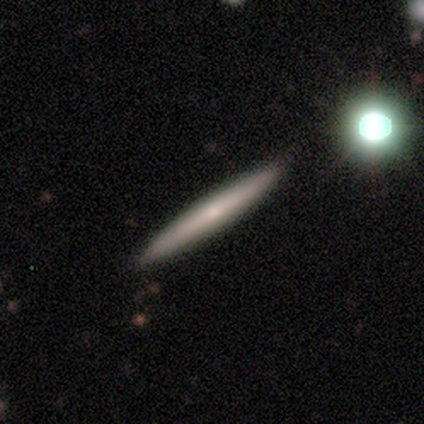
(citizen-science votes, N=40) Volunteers were most divided on "smooth or featured": featured or disk: 55%, smooth: 40%, star or artifact: 5%. More confident: edge-on disk — yes (95%); merging — none (92%); edge-on bulge — none (62%).